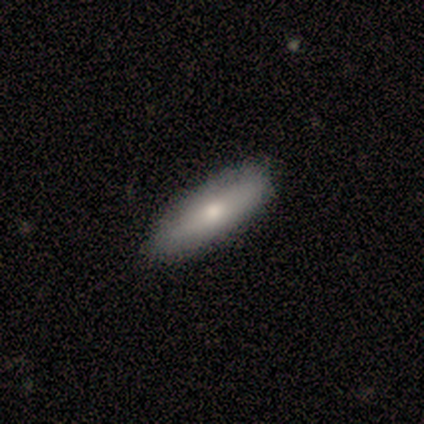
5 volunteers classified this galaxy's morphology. Smooth or featured?
  - smooth: 60% *
  - featured or disk: 40%
  - star or artifact: 0%
How rounded?
  - cigar-shaped: 67% *
  - in between: 33%
  - round: 0%
Merging?
  - none: 100% *
  - minor disturbance: 0%
  - major disturbance: 0%
  - merger: 0%